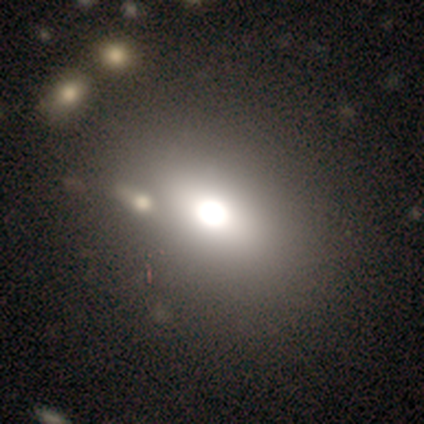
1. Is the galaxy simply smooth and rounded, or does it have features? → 50% smooth (tied), 50% star or artifact (tied), 0% featured or disk.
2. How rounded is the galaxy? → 100% in between, 0% round, 0% cigar-shaped.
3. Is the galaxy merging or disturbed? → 100% none, 0% minor disturbance, 0% major disturbance, 0% merger.